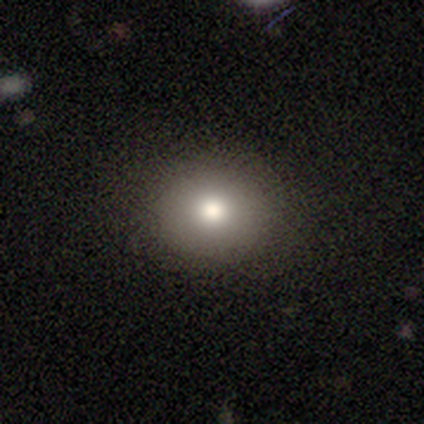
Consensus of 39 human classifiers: Smooth or featured?
  - smooth: 85% *
  - star or artifact: 10%
  - featured or disk: 5%
How rounded?
  - round: 64% *
  - in between: 36%
  - cigar-shaped: 0%
Merging?
  - none: 91% *
  - minor disturbance: 6%
  - major disturbance: 3%
  - merger: 0%